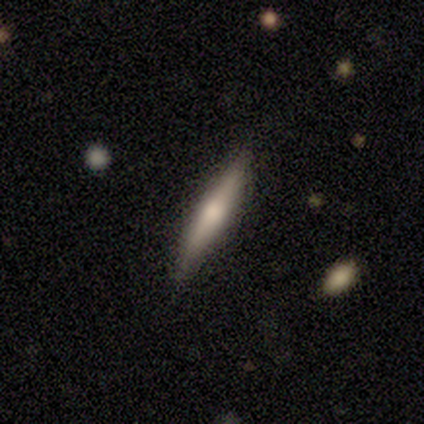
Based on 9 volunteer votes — A featured or disk galaxy (89%) viewed edge-on (100%) with a rounded central bulge (75%). Merging: none (89%).